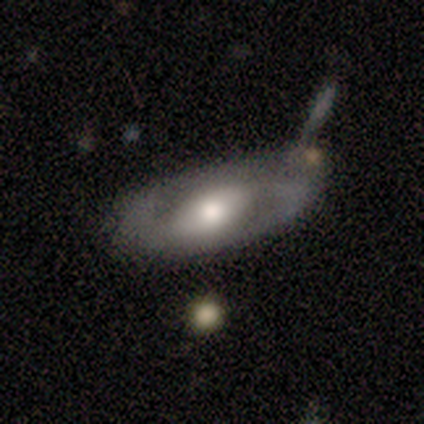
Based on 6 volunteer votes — Smooth or featured? 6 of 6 (100%) said featured or disk. Edge-on disk? 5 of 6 (83%) said no. Bar? 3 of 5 (60%) said weak. Spiral arms? 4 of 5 (80%) said yes. Spiral winding? 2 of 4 (50%) said loose. Spiral arm count? 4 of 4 (100%) said 2. Bulge size? 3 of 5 (60%) said moderate. Merging? 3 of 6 (50%) said none.